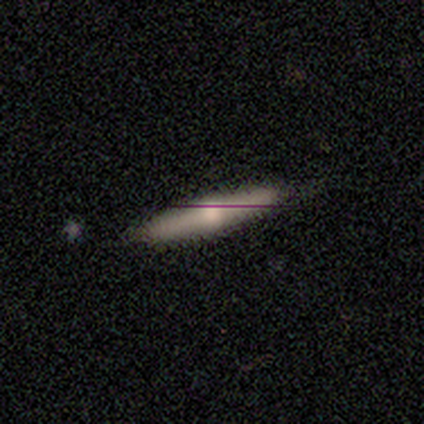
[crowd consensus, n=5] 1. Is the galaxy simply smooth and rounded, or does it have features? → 40% smooth (tied), 40% featured or disk (tied), 20% star or artifact.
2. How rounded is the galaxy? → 100% cigar-shaped, 0% round, 0% in between.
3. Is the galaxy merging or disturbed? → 75% none, 25% major disturbance, 0% minor disturbance, 0% merger.